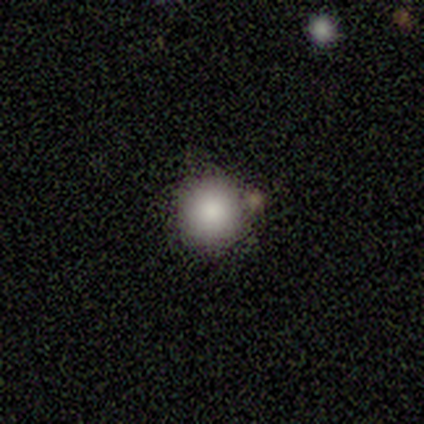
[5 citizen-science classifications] smooth 100%, featured or disk 0%, star or artifact 0%. Down the decision tree: how rounded — round (100%); merging — none (60%).